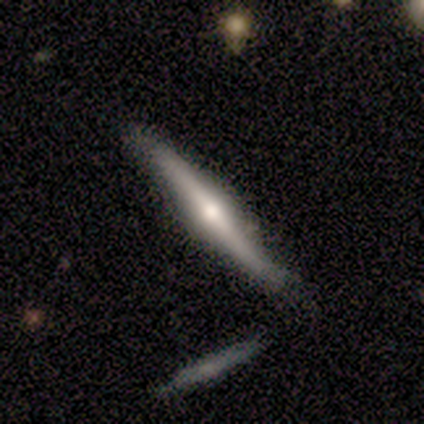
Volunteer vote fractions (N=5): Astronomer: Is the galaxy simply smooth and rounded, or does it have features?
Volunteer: featured or disk — 80%.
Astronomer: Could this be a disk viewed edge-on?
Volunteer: yes — 100%.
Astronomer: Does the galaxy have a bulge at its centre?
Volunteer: rounded — 100%.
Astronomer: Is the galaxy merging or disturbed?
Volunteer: none — 60% (runner-up: minor disturbance, 40%).